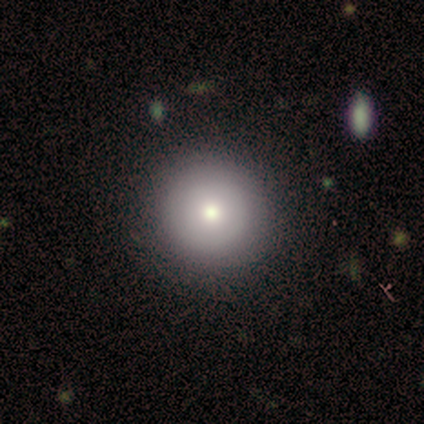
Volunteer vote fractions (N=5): Overall: smooth (80%). How rounded: round (100%). Merging: none (100%).